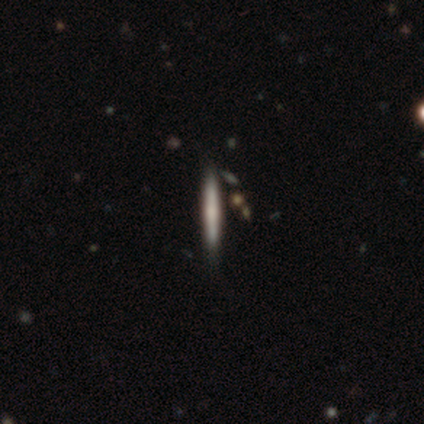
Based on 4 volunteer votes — A featured or disk galaxy (50%) viewed edge-on (100%) with a boxy central bulge (50%, tied with rounded). Merging: none (100%).